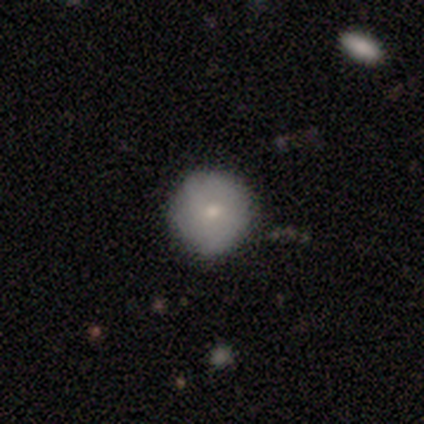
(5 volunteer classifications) Smooth or featured? 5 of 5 (100%) said smooth. How rounded? 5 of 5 (100%) said round. Merging? 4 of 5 (80%) said none.